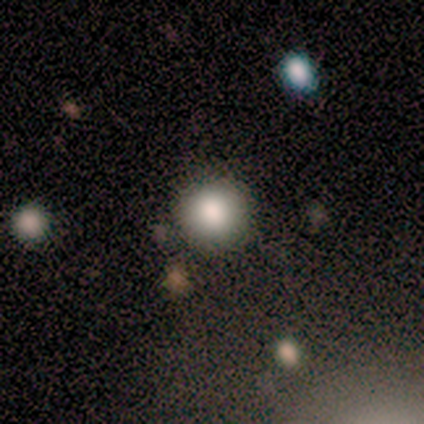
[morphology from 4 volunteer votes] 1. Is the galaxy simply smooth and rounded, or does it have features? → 100% smooth, 0% featured or disk, 0% star or artifact.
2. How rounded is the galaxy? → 100% round, 0% in between, 0% cigar-shaped.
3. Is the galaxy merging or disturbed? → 75% none, 25% minor disturbance, 0% major disturbance, 0% merger.